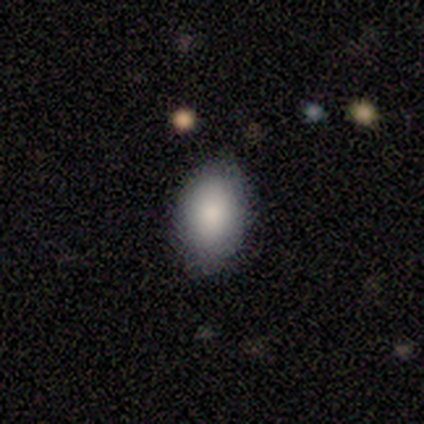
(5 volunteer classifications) Smooth or featured? smooth (100%)
How rounded? in between (100%)
Merging? none (80%)